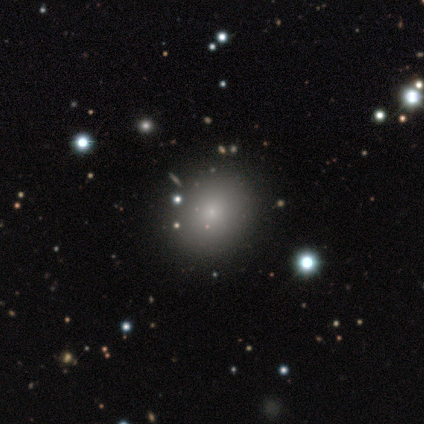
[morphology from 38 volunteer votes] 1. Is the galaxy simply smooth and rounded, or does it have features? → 63% smooth, 34% star or artifact, 3% featured or disk.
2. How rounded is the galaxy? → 83% round, 17% in between, 0% cigar-shaped.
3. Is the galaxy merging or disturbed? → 92% none, 8% merger, 0% minor disturbance, 0% major disturbance.